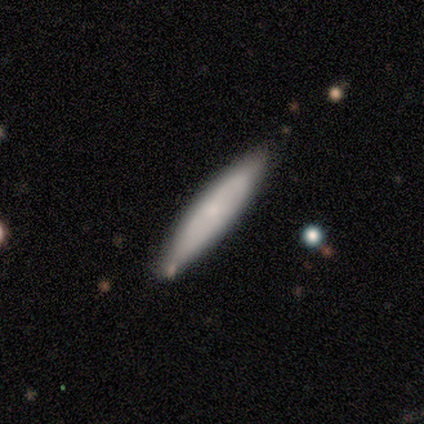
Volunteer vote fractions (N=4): A smooth galaxy with no disk features (100%) that is cigar-shaped (75%).

Vote fractions:
- Smooth or featured? smooth: 100% / featured or disk: 0% / star or artifact: 0%
- How rounded? cigar-shaped: 75% / in between: 25% / round: 0%
- Merging? none: 75% / merger: 25% / minor disturbance: 0% / major disturbance: 0%